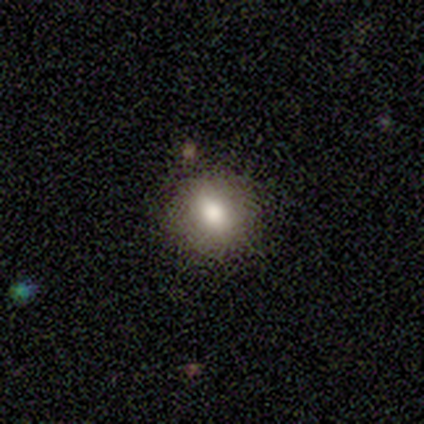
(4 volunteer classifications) Smooth or featured? smooth (50%)
How rounded? round (100%)
Merging? none (100%)